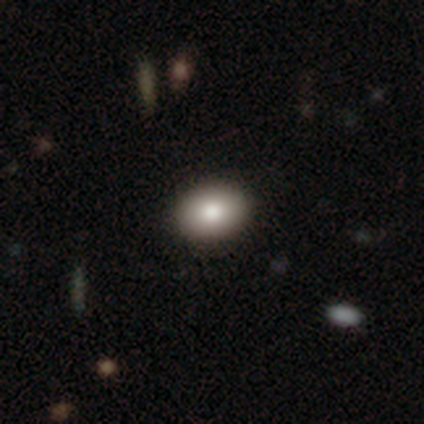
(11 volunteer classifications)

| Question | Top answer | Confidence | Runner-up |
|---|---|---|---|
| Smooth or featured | smooth | 82% | featured or disk (9%) |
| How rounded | in between | 67% | round (33%) |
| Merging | none | 100% | — |